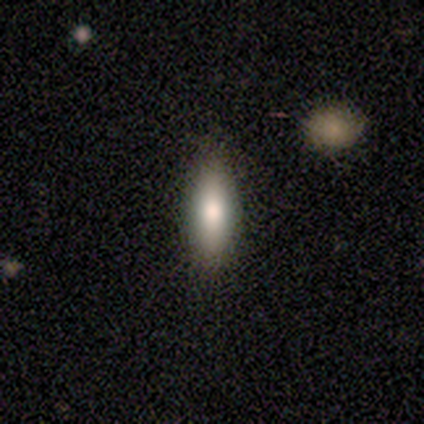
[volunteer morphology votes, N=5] Smooth or featured?
  - smooth: 100% *
  - featured or disk: 0%
  - star or artifact: 0%
How rounded?
  - in between: 60% *
  - cigar-shaped: 40%
  - round: 0%
Merging?
  - none: 100% *
  - minor disturbance: 0%
  - major disturbance: 0%
  - merger: 0%